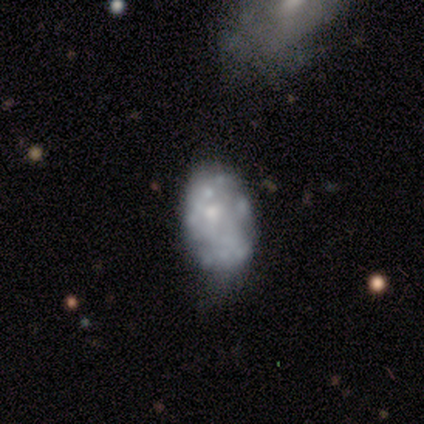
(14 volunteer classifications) Q: Smooth or featured?
A: featured or disk (64%); runner-up: smooth (36%)
Q: Edge-on disk?
A: no (100%)
Q: Bar?
A: no (89%); runner-up: weak (11%)
Q: Spiral arms?
A: no (78%); runner-up: yes (22%)
Q: Bulge size?
A: moderate (56%); runner-up: none (33%)
Q: Merging?
A: none (50%); runner-up: minor disturbance (36%)